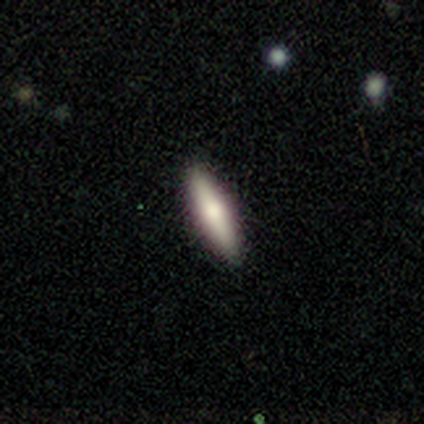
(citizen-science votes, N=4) This is likely a smooth galaxy (75%). How rounded: likely cigar-shaped (67%). Merging: clearly none (100%).